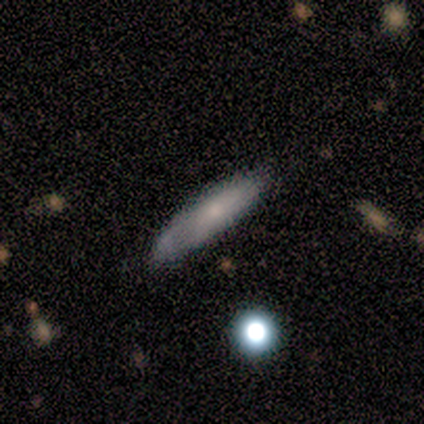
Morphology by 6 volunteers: This appears to be a smooth galaxy with no disk features (83%) that is in between round and cigar-shaped (80%). Merging: none (83%).